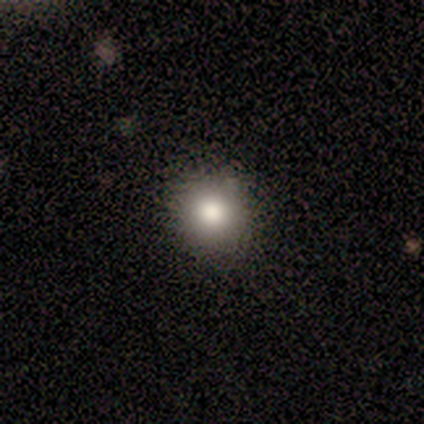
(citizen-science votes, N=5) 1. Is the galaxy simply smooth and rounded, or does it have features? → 80% smooth, 20% star or artifact, 0% featured or disk.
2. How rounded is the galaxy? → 100% round, 0% in between, 0% cigar-shaped.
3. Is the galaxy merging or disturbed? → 50% none (tied), 50% minor disturbance (tied), 0% major disturbance, 0% merger.